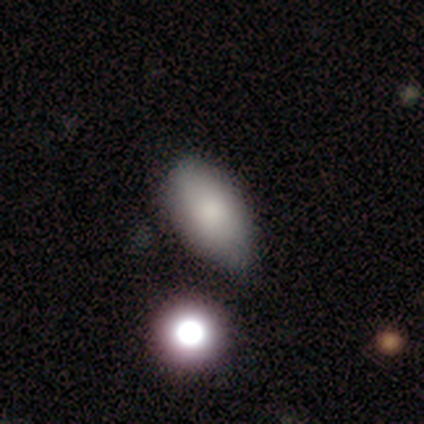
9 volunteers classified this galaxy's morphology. This is clearly a smooth galaxy (89%). How rounded: clearly in between (88%). Merging: clearly none (100%).